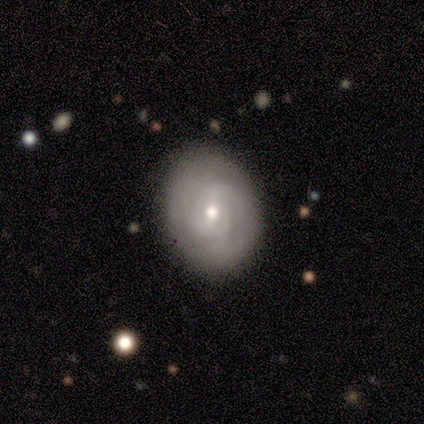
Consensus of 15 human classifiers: smooth_or_featured: featured or disk (p=0.87) [alt: smooth p=0.13]
disk_edge_on: no (p=1.00)
bar: no (p=0.69) [alt: weak p=0.31]
has_spiral_arms: yes (p=0.85) [alt: no p=0.15]
spiral_winding: tight (p=0.64) [alt: medium p=0.18]
spiral_arm_count: can't tell (p=0.45) [alt: 2 p=0.36]
bulge_size: small (p=0.62) [alt: moderate p=0.38]
merging: none (p=0.93) [alt: minor disturbance p=0.07]